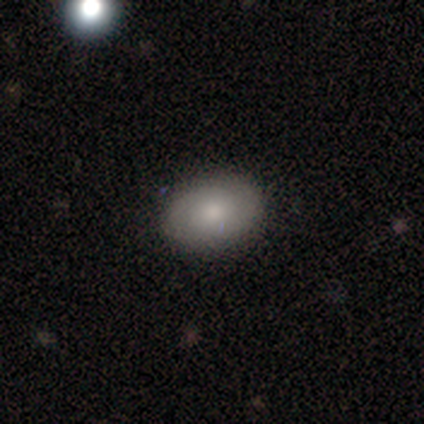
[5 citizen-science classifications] Overall: smooth (80%). How rounded: in between (100%). Merging: none (100%).